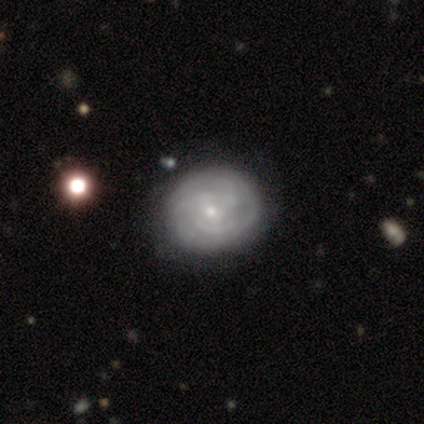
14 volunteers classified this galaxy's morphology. Smooth or featured? featured or disk (57%)
Edge-on disk? no (88%)
Bar? no (100%)
Spiral arms? yes (71%)
Spiral winding? tight (60%)
Spiral arm count? 2 (40%, tied with 3)
Bulge size? small (100%)
Merging? none (69%)